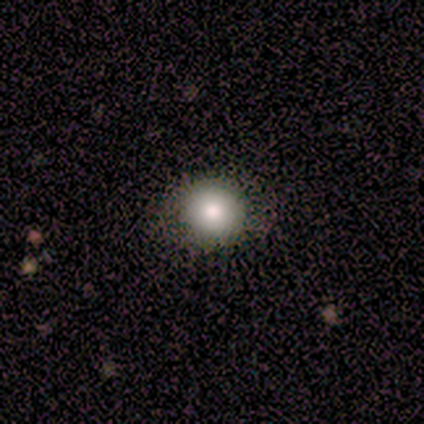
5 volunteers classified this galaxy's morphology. Smooth or featured?
  - smooth: 80% *
  - star or artifact: 20%
  - featured or disk: 0%
How rounded?
  - round: 75% *
  - in between: 25%
  - cigar-shaped: 0%
Merging?
  - none: 100% *
  - minor disturbance: 0%
  - major disturbance: 0%
  - merger: 0%